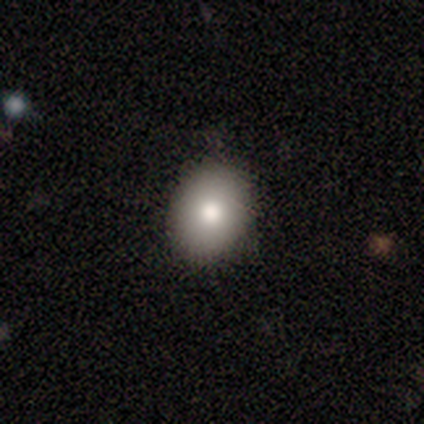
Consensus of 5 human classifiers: Overall: smooth (80%). How rounded: round (50%, tied with in between). Merging: none (75%).